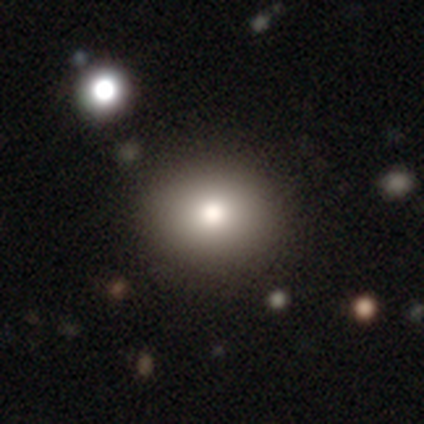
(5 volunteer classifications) Morphology: type=smooth (100%); roundness=round (60%); merging=none (100%).